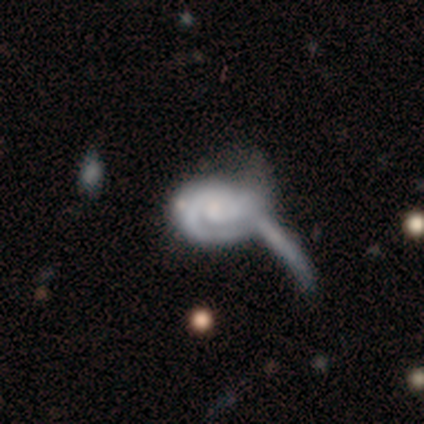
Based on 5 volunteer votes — Smooth or featured?
  - featured or disk: 80% *
  - smooth: 20%
  - star or artifact: 0%
Edge-on disk?
  - no: 75% *
  - yes: 25%
Bar?
  - no: 67% *
  - strong: 33%
  - weak: 0%
Spiral arms?
  - yes: 100% *
  - no: 0%
Spiral winding?
  - tight: 67% *
  - medium: 33%
  - loose: 0%
Spiral arm count?
  - 1: 33% * (tied)
  - 2: 33% * (tied)
  - can't tell: 33% * (tied)
  - 3: 0%
  - 4: 0%
  - more than 4: 0%
Bulge size?
  - none: 67% *
  - small: 33%
  - dominant: 0%
  - large: 0%
  - moderate: 0%
Merging?
  - merger: 40% *
  - none: 20%
  - minor disturbance: 20%
  - major disturbance: 20%